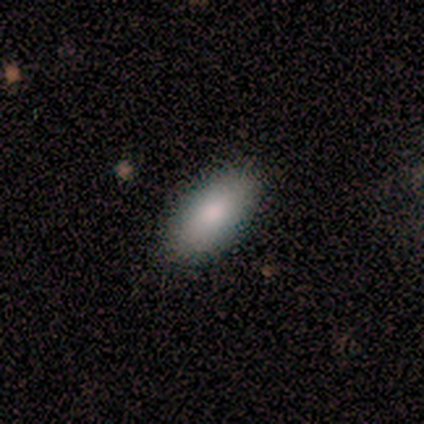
Smooth or featured? 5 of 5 (100%) said smooth. How rounded? 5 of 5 (100%) said in between. Merging? 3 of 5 (60%) said none.